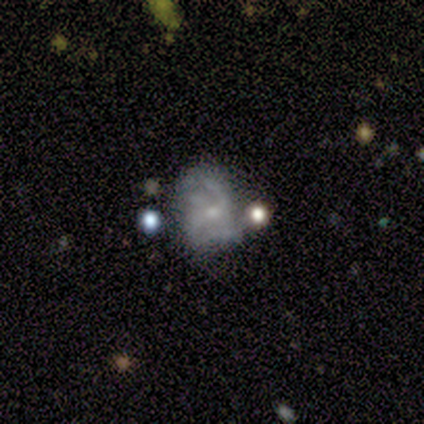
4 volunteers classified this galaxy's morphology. type=featured or disk (100%); edge-on=no (100%); bar=no (50%); spiral arms=yes (75%); winding=medium (67%); arm count=can't tell (67%); bulge=small (75%); merging=none (75%).